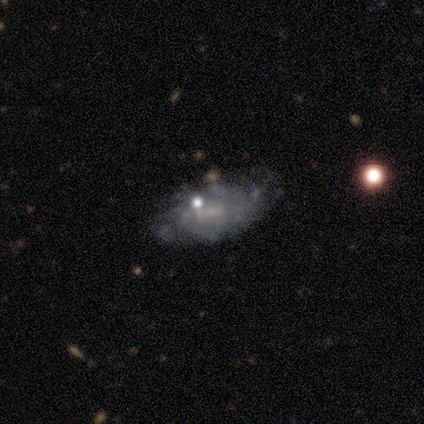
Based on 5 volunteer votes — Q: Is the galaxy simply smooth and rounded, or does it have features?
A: featured or disk — 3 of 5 (60%).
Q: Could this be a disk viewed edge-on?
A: no — 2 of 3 (67%).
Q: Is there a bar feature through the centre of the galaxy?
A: weak — 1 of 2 (50%, tied with no).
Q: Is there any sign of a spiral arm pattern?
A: no — 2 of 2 (100%).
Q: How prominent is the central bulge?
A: moderate — 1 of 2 (50%, tied with none).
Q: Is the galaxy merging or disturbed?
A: minor disturbance — 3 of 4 (75%).